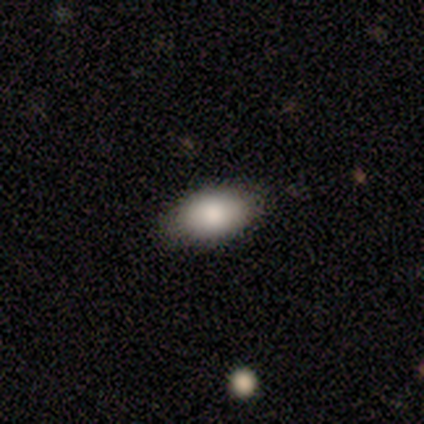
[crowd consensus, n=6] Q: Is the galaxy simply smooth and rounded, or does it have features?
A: smooth — 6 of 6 (100%).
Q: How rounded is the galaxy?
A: in between — 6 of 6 (100%).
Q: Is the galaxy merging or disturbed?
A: none — 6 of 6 (100%).